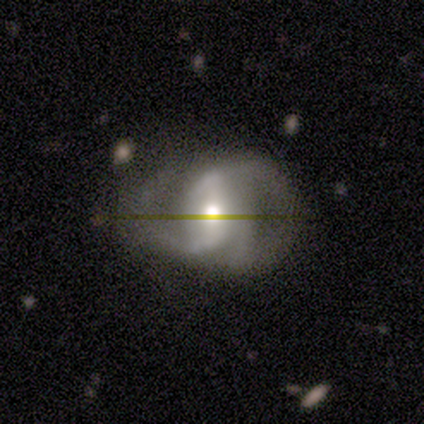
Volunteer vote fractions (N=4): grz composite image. It shows a featured or disk galaxy (75%) with a weak bar (67%), 2 (100%) loose (67%) spiral arms (100%) and a large central bulge (33%, tied with moderate and small). Merging: none (50%).